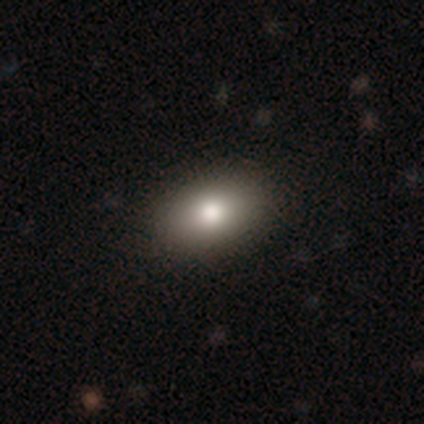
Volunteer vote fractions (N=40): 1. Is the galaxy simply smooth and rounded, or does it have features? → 88% smooth, 8% featured or disk, 5% star or artifact.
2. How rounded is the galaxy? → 83% in between, 17% round, 0% cigar-shaped.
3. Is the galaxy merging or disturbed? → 66% none, 5% major disturbance, 0% minor disturbance, 0% merger.